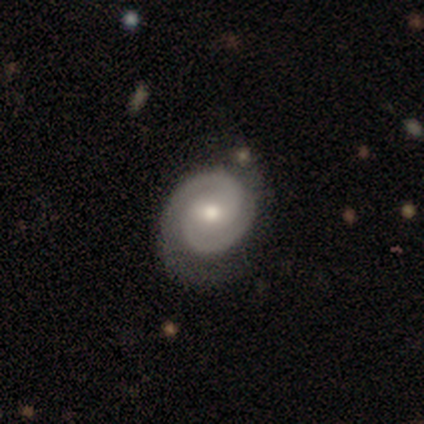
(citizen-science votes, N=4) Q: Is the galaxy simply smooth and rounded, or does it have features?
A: featured or disk — 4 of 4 (100%).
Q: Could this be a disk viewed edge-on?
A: no — 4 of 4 (100%).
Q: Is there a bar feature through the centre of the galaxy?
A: no — 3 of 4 (75%).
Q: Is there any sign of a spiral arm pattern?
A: yes — 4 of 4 (100%).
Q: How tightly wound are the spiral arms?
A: tight — 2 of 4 (50%, tied with medium).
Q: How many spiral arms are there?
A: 2 — 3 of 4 (75%).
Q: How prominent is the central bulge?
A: moderate — 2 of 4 (50%, tied with small).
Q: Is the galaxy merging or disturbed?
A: minor disturbance — 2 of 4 (50%).